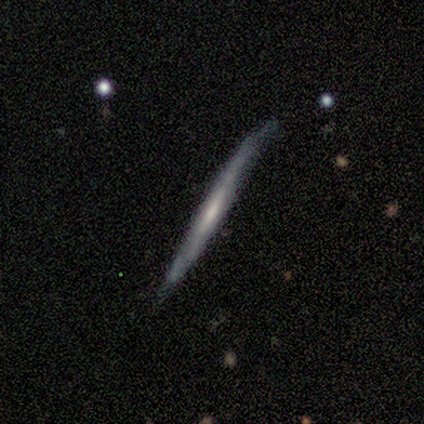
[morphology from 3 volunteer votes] Smooth or featured? smooth (67%)
How rounded? cigar-shaped (100%)
Merging? minor disturbance (67%)